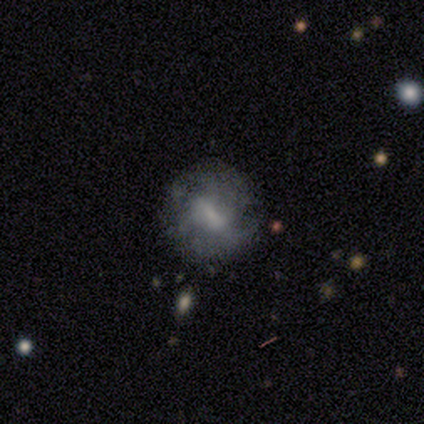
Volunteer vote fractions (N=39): A featured or disk galaxy (72%) with a weak bar (56%), no spiral arms (52%) and a small central bulge (40%). Merging: none (64%).